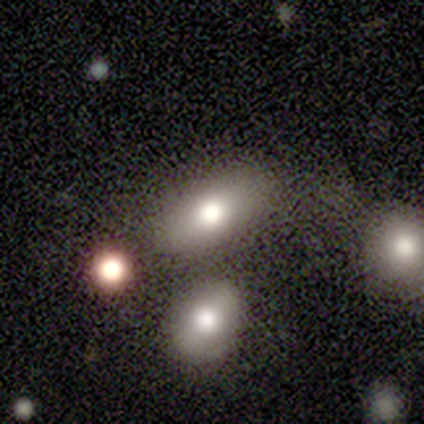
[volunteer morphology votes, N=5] Smooth or featured? 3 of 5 (60%) said smooth. How rounded? 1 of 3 (33%, tied with in between and cigar-shaped) said round. Merging? 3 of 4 (75%) said none.